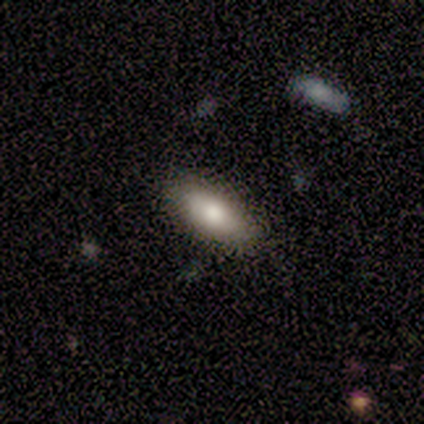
Smooth or featured: smooth — 100%
How rounded: in between — 100%
Merging: none — 100%